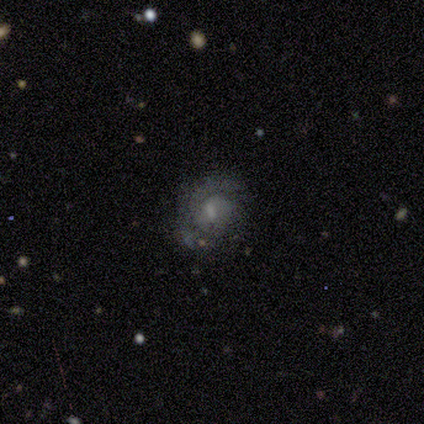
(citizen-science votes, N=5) Smooth or featured? featured or disk (80%)
Edge-on disk? no (100%)
Bar? weak (100%)
Spiral arms? yes (100%)
Spiral winding? tight (50%)
Spiral arm count? 1 (50%)
Bulge size? moderate (75%)
Merging? none (80%)